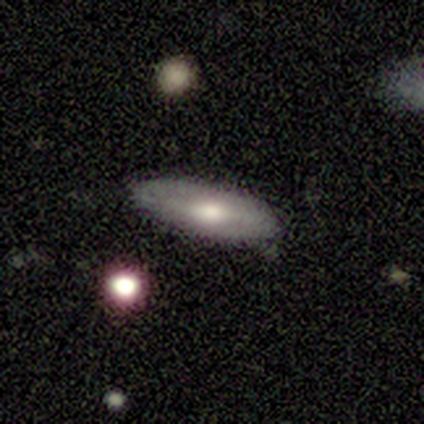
Volunteers were most divided on "how rounded": in between: 75%, cigar-shaped: 25%, round: 0%. More confident: merging — none (100%); smooth or featured — smooth (80%).